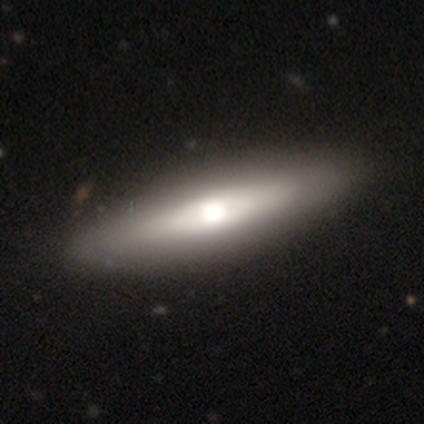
Morphology: type=smooth (62%); roundness=cigar-shaped (80%); merging=none (62%).